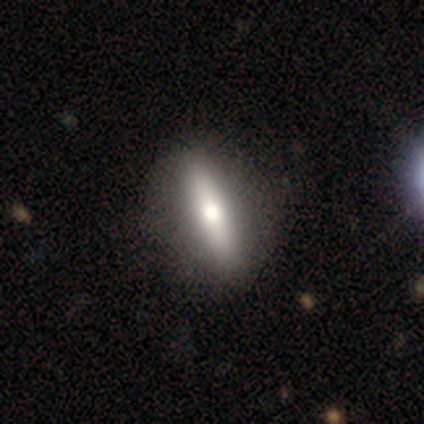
A smooth galaxy with no disk features (80%) that is in between round and cigar-shaped (50%, tied with cigar-shaped). Merging: none (80%).